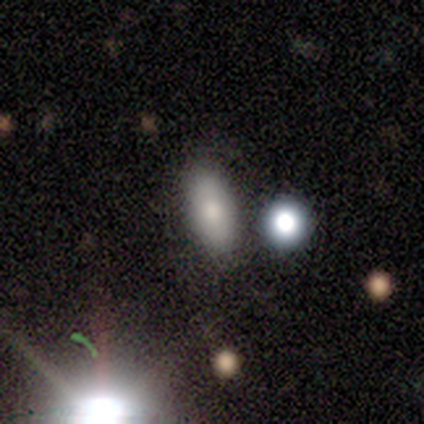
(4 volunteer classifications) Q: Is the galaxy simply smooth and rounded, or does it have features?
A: smooth — 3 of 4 (75%).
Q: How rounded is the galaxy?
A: in between — 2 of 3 (67%).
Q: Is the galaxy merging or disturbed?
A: none — 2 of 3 (67%).